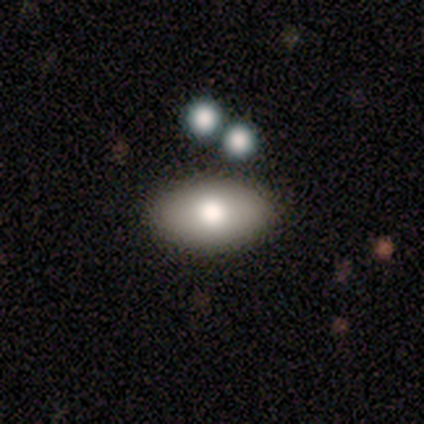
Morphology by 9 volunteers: This is likely a smooth galaxy (67%). How rounded: clearly in between (100%). Merging: clearly none (89%).